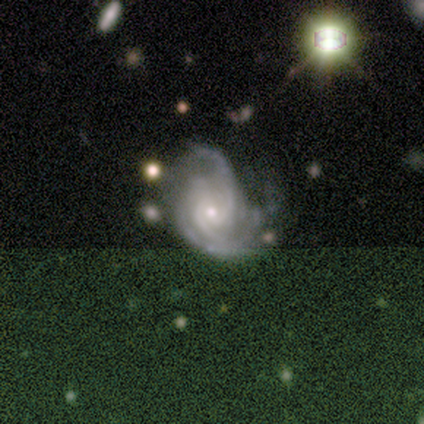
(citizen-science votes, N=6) A featured or disk galaxy (100%) with no bar (67%), 3 (33%, tied with 4) tight (67%) spiral arms (100%) and a small central bulge (100%). Merging: minor disturbance (50%, tied with major disturbance).